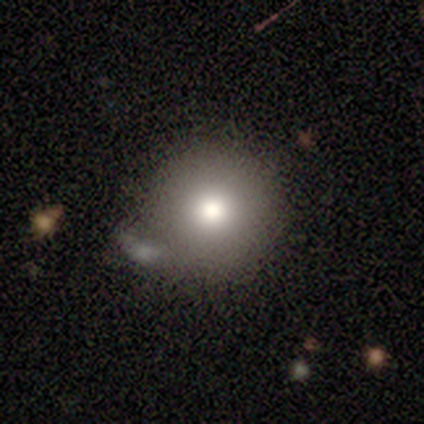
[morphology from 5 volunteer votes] smooth 40% (tied), featured or disk 40% (tied), star or artifact 20%. Down the decision tree: how rounded — round (100%); merging — none (75%).